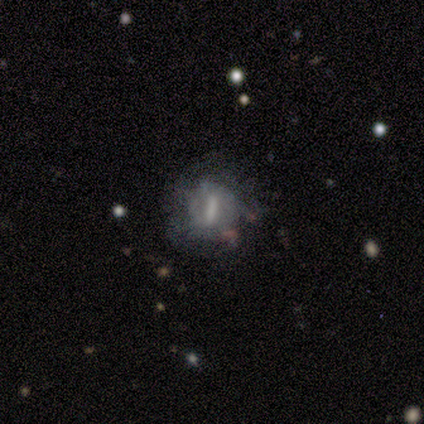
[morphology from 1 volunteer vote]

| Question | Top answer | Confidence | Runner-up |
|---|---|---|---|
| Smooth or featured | featured or disk | 100% | — |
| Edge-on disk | no | 100% | — |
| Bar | weak | 100% | — |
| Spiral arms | yes | 100% | — |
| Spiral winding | tight | 100% | — |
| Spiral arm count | can't tell | 100% | — |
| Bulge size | small | 100% | — |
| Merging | minor disturbance | 100% | — |